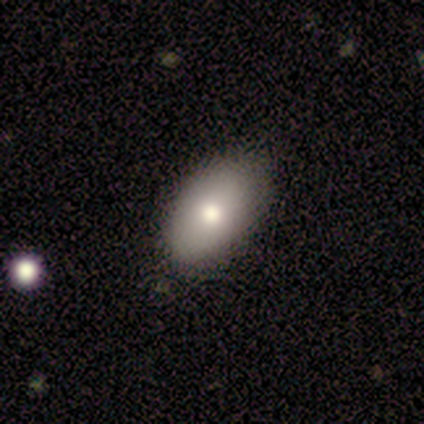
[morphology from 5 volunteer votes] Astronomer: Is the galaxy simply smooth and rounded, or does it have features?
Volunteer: smooth — 60%.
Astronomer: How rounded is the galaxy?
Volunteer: in between — 100%.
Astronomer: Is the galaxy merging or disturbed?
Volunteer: none — 100%.